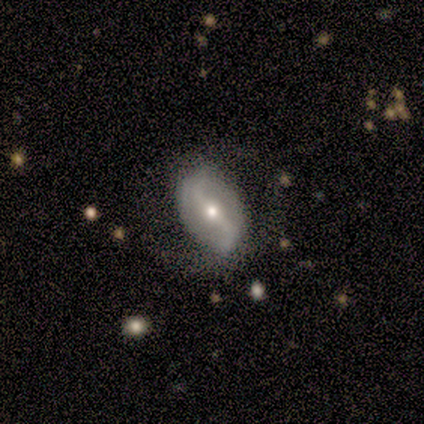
Smooth or featured? 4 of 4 (100%) said featured or disk. Edge-on disk? 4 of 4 (100%) said no. Bar? 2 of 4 (50%) said strong. Spiral arms? 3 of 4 (75%) said yes. Spiral winding? 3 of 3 (100%) said loose. Spiral arm count? 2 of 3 (67%) said 2. Bulge size? 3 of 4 (75%) said moderate. Merging? 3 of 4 (75%) said none.